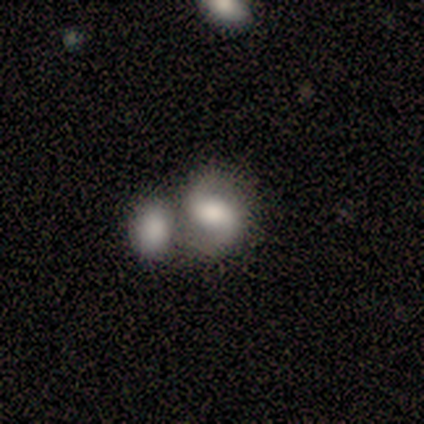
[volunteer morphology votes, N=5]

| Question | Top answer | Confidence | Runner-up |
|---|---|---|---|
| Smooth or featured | featured or disk | 60% | smooth (20%) |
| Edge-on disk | no | 100% | — |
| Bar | no | 67% | strong (33%) |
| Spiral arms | yes | 100% | — |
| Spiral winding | loose | 67% | medium (33%) |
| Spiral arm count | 2 | 100% | — |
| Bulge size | moderate | 100% | — |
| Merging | merger | 50% | none (25%) |